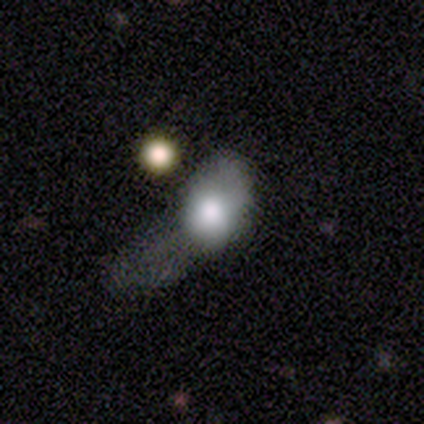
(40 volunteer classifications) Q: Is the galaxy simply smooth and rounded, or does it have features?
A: smooth — 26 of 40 (65%).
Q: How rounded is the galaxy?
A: in between — 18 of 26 (69%).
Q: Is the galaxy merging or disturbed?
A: major disturbance — 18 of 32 (56%).